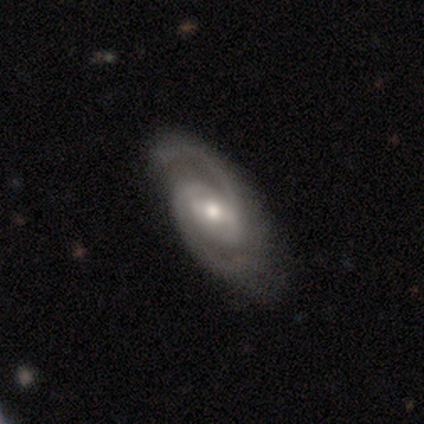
smooth-or-featured: featured or disk: 100% | smooth: 0% | star or artifact: 0%
  disk-edge-on: no: 98% | yes: 2%
    bar: weak: 59% | strong: 21% | no: 21%
    has-spiral-arms: yes: 100% | no: 0%
      spiral-winding: medium: 51% | tight: 26% | loose: 23%
      spiral-arm-count: 2: 92% | 3: 5% | can't tell: 3% | 1: 0% | 4: 0% | more than 4: 0%
    bulge-size: moderate: 69% | small: 23% | large: 8% | dominant: 0% | none: 0%
  merging: none: 62% | minor disturbance: 10% | major disturbance: 0% | merger: 0%